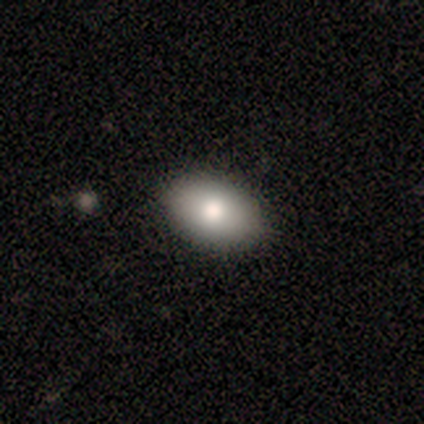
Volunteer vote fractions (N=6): Smooth or featured: smooth — 100%
How rounded: in between — 83% (round — 17%)
Merging: none — 100%